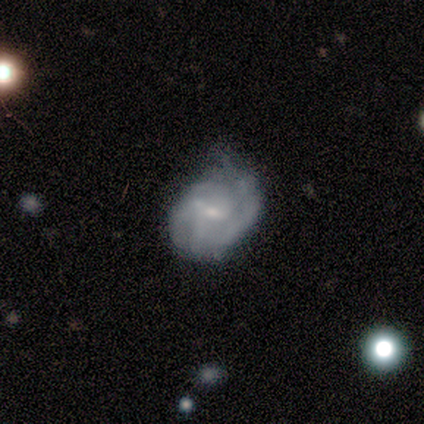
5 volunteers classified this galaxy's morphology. smooth_or_featured: featured or disk (p=0.60) [alt: smooth p=0.40]
disk_edge_on: no (p=1.00)
bar: no (p=0.67) [alt: strong p=0.33]
has_spiral_arms: yes (p=0.67) [alt: no p=0.33]
spiral_winding: tight (p=0.50) [tied with: medium p=0.50]
spiral_arm_count: 2 (p=0.50) [tied with: can't tell p=0.50]
bulge_size: small (p=1.00)
merging: none (p=0.60) [alt: minor disturbance p=0.40]